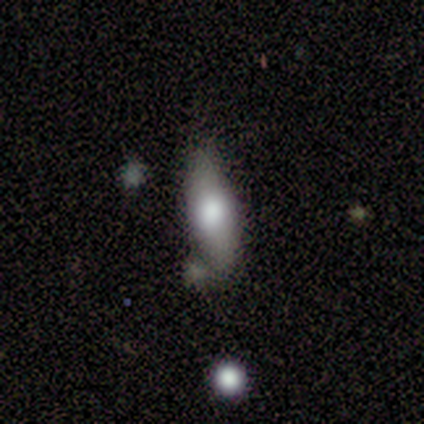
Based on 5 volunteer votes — A smooth galaxy with no disk features (60%) that is cigar-shaped (67%). Merging: none (50%, tied with minor disturbance).